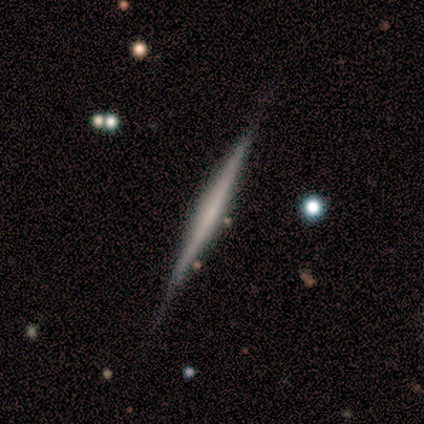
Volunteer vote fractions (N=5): Q: Smooth or featured?
A: featured or disk (60%); runner-up: smooth (40%)
Q: Edge-on disk?
A: yes (100%)
Q: Edge-on bulge?
A: none (67%); runner-up: rounded (33%)
Q: Merging?
A: none (100%)